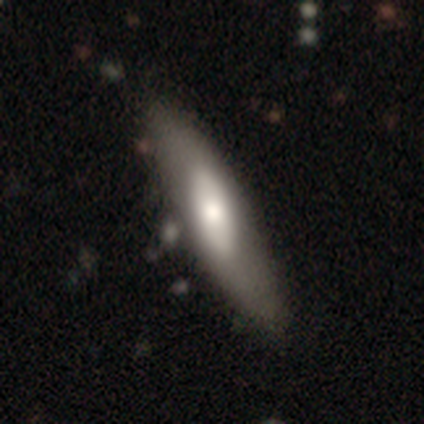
Smooth or featured? 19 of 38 (50%) said smooth. How rounded? 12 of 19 (63%) said cigar-shaped. Merging? 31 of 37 (84%) said none.